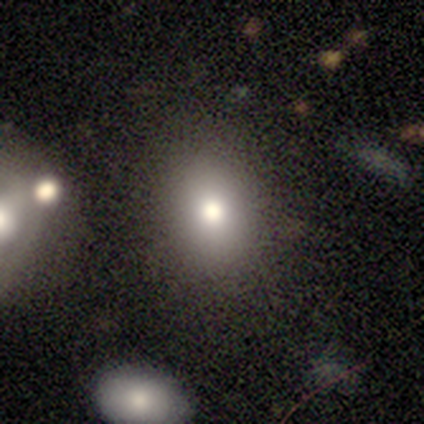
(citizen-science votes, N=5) Smooth or featured? 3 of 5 (60%) said smooth. How rounded? 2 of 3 (67%) said in between. Merging? 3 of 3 (100%) said none.